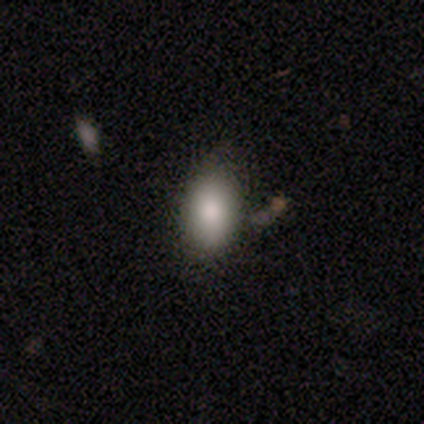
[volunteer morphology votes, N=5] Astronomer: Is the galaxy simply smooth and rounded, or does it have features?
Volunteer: smooth — 60%.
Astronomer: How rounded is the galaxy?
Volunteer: in between — 100%.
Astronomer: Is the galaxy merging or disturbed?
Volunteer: none — 75%.